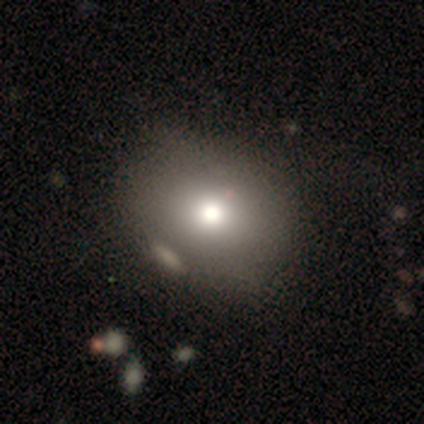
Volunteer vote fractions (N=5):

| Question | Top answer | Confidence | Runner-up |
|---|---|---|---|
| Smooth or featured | smooth | 80% | featured or disk (20%) |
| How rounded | round | 50% | tied: in between (50%) |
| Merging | none | 60% | minor disturbance (40%) |